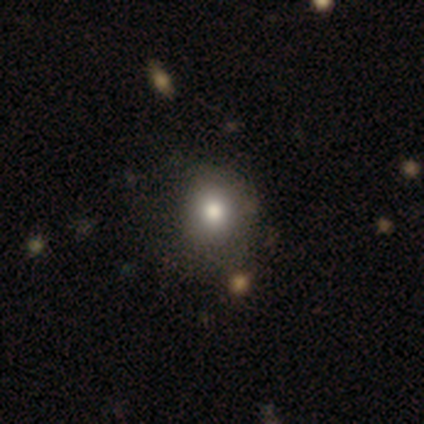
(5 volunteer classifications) Overall: smooth (100%). How rounded: in between (60%; round 40%). Merging: none (80%).